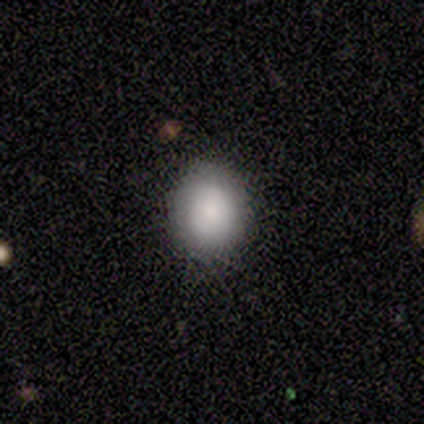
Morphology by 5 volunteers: Overall: smooth (60%; featured or disk 20%). How rounded: in between (67%; round 33%). Merging: none (75%).